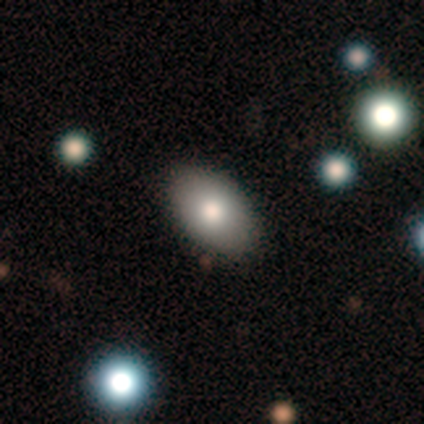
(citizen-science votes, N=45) Morphology: type=smooth (73%); roundness=in between (88%); merging=none (95%).